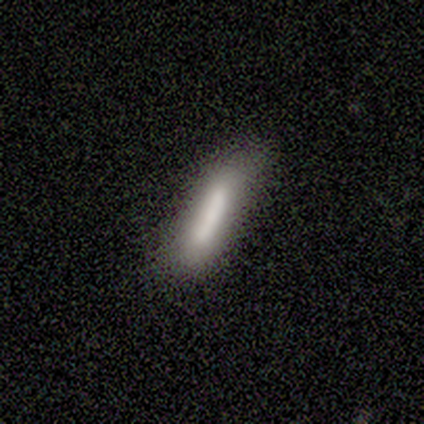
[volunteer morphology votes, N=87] A smooth galaxy with no disk features (76%) that is cigar-shaped (82%). Merging: none (67%).